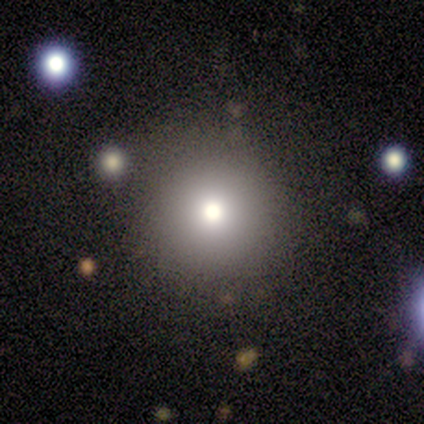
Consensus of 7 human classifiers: Volunteers were most divided on "smooth or featured": smooth: 57%, featured or disk: 43%, star or artifact: 0%. More confident: how rounded — round (100%); merging — none (57%).